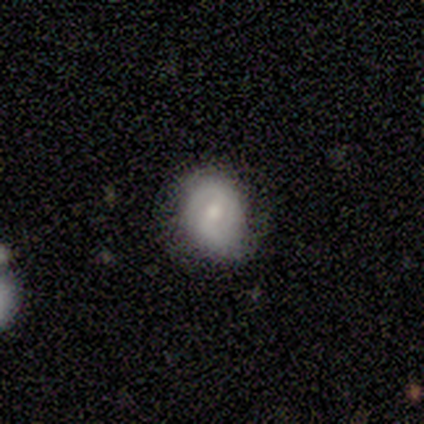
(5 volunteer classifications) Smooth or featured? smooth (60%)
How rounded? round (67%)
Merging? none (40%, tied with minor disturbance)